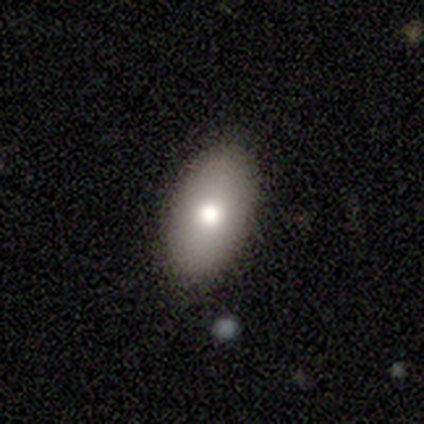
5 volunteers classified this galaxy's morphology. Overall: smooth (80%). How rounded: in between (100%). Merging: none (80%).